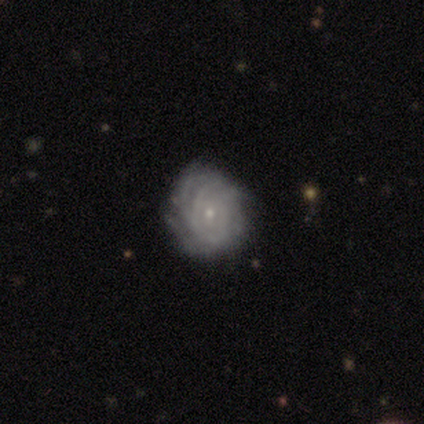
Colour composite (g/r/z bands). It shows a featured or disk galaxy (83%) with no bar (87%), tight (89%) spiral arms (90%) and a small central bulge (87%). Merging: none (58%).